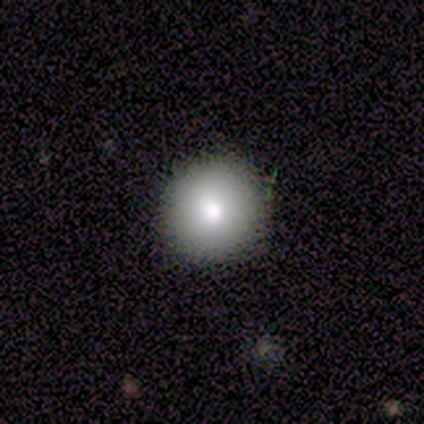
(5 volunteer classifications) Volunteers were most divided on "merging": none: 75%, minor disturbance: 25%, major disturbance: 0%, merger: 0%. More confident: how rounded — round (100%); smooth or featured — smooth (80%).